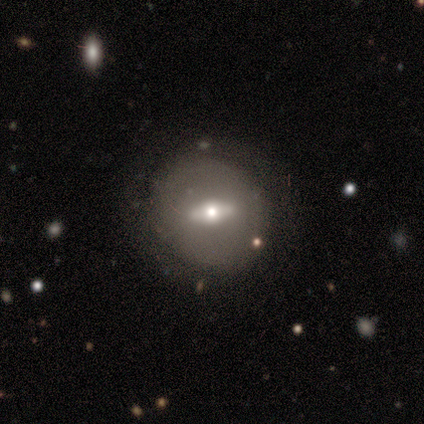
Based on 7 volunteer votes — Overall: featured or disk (86%). Edge-on disk: no (67%; yes 33%). Bar: strong (75%). Spiral arms: no (75%). Bulge size: moderate (50%, tied with small). Merging: none (86%).